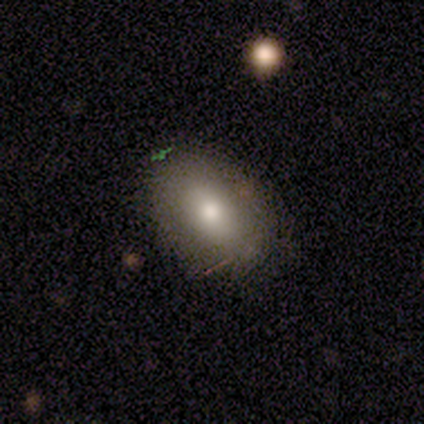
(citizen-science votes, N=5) This is clearly a smooth galaxy (80%). How rounded: likely in between (75%). Merging: clearly none (80%).